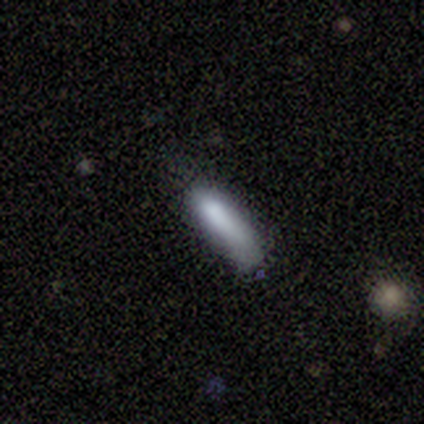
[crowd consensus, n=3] Smooth or featured? smooth (67%)
How rounded? cigar-shaped (100%)
Merging? none (50%, tied with minor disturbance)